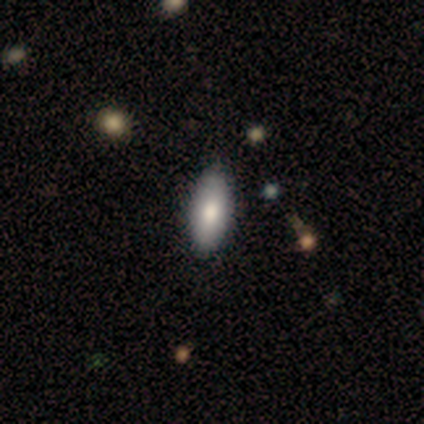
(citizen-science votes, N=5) A smooth galaxy with no disk features (60%) that is in between round and cigar-shaped (100%).

Vote fractions:
- Smooth or featured? smooth: 60% / featured or disk: 40% / star or artifact: 0%
- How rounded? in between: 100% / round: 0% / cigar-shaped: 0%
- Merging? none: 100% / minor disturbance: 0% / major disturbance: 0% / merger: 0%